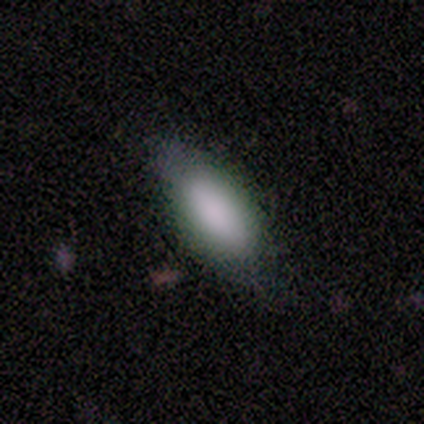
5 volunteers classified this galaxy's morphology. type=smooth (80%); roundness=in between (75%); merging=none (60%).